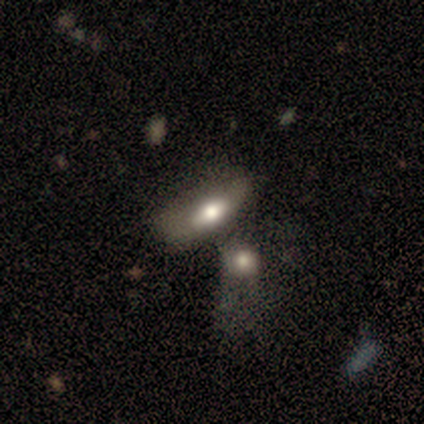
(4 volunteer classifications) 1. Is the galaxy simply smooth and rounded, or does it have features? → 75% smooth, 25% featured or disk, 0% star or artifact.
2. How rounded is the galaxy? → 67% in between, 33% cigar-shaped, 0% round.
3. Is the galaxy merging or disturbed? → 75% merger, 25% minor disturbance, 0% none, 0% major disturbance.